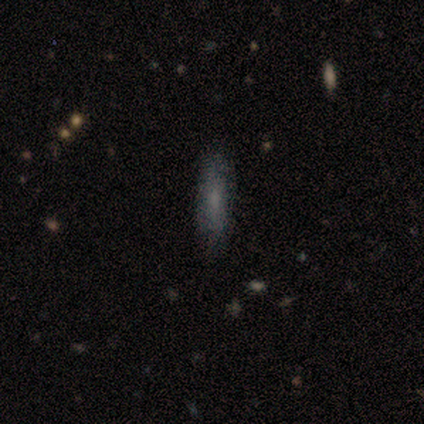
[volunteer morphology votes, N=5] Smooth or featured: smooth — 100%
How rounded: in between — 60% (cigar-shaped — 40%)
Merging: none — 100%